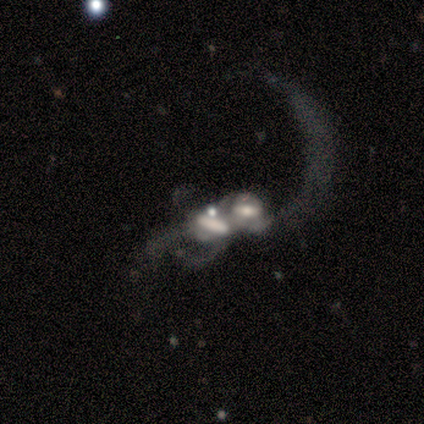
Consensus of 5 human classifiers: smooth_or_featured: featured or disk (p=0.60) [alt: smooth p=0.40]
disk_edge_on: no (p=0.67) [alt: yes p=0.33]
bar: strong (p=0.50) [tied with: no p=0.50]
has_spiral_arms: yes (p=0.50) [tied with: no p=0.50]
spiral_winding: loose (p=1.00)
spiral_arm_count: 1 (p=1.00)
bulge_size: moderate (p=0.50) [tied with: small p=0.50]
merging: merger (p=0.80) [alt: major disturbance p=0.20]